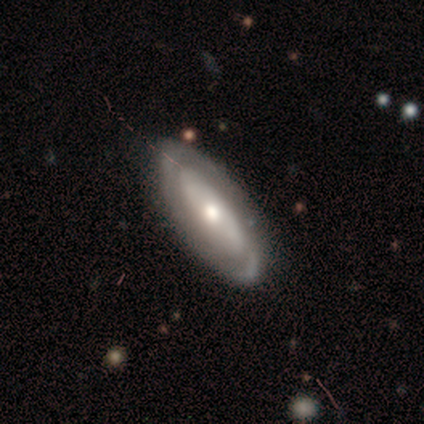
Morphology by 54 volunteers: smooth-or-featured: featured or disk: 76% | smooth: 20% | star or artifact: 4%
  disk-edge-on: no: 90% | yes: 10%
    bar: no: 68% | weak: 19% | strong: 14%
    has-spiral-arms: yes: 59% | no: 41%
      spiral-winding: tight: 68% | medium: 23% | loose: 9%
      spiral-arm-count: 2: 55% | can't tell: 32% | 3: 9% | 1: 5% | 4: 0% | more than 4: 0%
    bulge-size: moderate: 59% | small: 27% | large: 14% | dominant: 0% | none: 0%
  merging: none: 75% | minor disturbance: 19% | merger: 6% | major disturbance: 0%